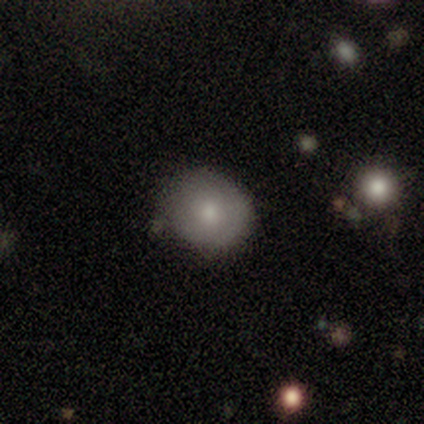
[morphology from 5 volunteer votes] smooth_or_featured: smooth (p=0.80) [alt: featured or disk p=0.20]
how_rounded: round (p=0.75) [alt: in between p=0.25]
merging: none (p=1.00)